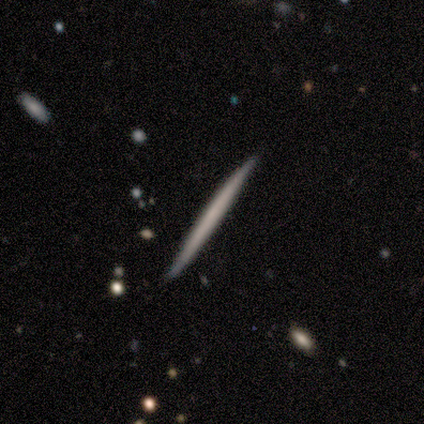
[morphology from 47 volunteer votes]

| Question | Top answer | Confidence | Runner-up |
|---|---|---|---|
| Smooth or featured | featured or disk | 51% | smooth (45%) |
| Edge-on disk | yes | 96% | no (4%) |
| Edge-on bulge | none | 100% | — |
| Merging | none | 87% | minor disturbance (9%) |